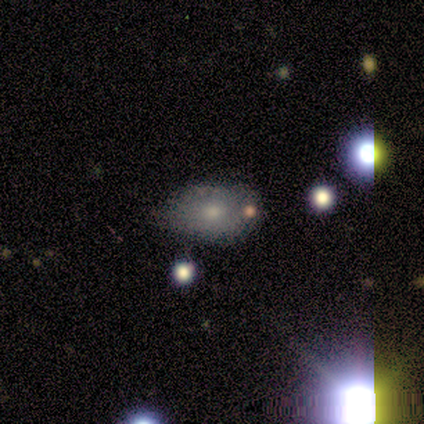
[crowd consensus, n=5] smooth 40% (tied), featured or disk 40% (tied), star or artifact 20%. Down the decision tree: how rounded — in between (100%); merging — none (75%).